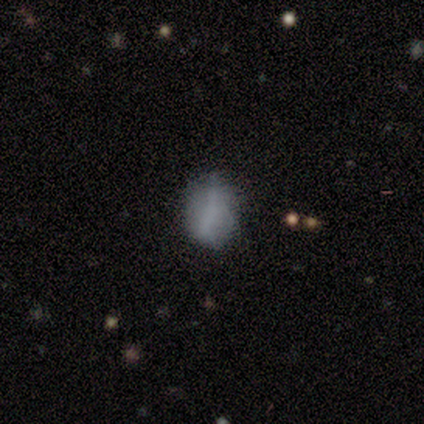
Volunteers were most divided on "how rounded": in between: 58%, round: 38%, cigar-shaped: 4%. More confident: merging — none (65%); smooth or featured — smooth (63%).